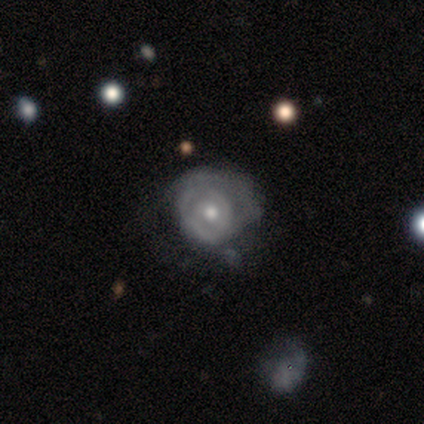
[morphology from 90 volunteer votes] Smooth or featured?
  - featured or disk: 72% *
  - smooth: 21%
  - star or artifact: 7%
Edge-on disk?
  - no: 100% *
  - yes: 0%
Bar?
  - no: 77% *
  - weak: 18%
  - strong: 5%
Spiral arms?
  - yes: 57% *
  - no: 43%
Spiral winding?
  - tight: 59% *
  - medium: 32%
  - loose: 8%
Spiral arm count?
  - can't tell: 43% *
  - 2: 38%
  - 1: 11%
  - 3: 3%
  - 4: 3%
  - more than 4: 3%
Bulge size?
  - moderate: 66% *
  - small: 32%
  - none: 2%
  - dominant: 0%
  - large: 0%
Merging?
  - none: 50% *
  - minor disturbance: 27%
  - major disturbance: 23%
  - merger: 0%